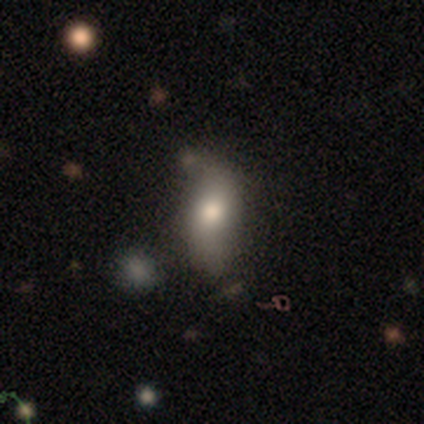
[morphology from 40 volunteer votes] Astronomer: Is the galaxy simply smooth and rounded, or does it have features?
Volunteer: smooth — 70%.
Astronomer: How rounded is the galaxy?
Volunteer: in between — 71%.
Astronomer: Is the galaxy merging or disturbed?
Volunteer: none — 64%.